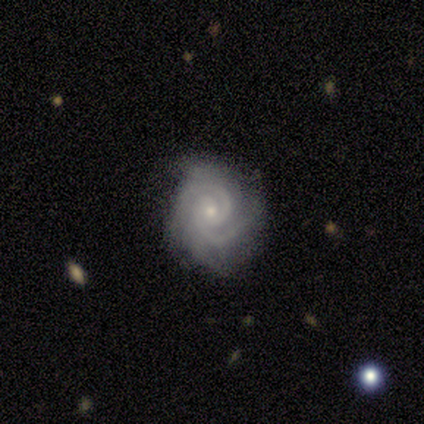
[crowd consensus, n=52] Smooth or featured? 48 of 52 (92%) said featured or disk. Edge-on disk? 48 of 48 (100%) said no. Bar? 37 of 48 (77%) said no. Spiral arms? 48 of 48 (100%) said yes. Spiral winding? 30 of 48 (62%) said tight. Spiral arm count? 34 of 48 (71%) said 2. Bulge size? 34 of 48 (71%) said small. Merging? 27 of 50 (54%) said none.